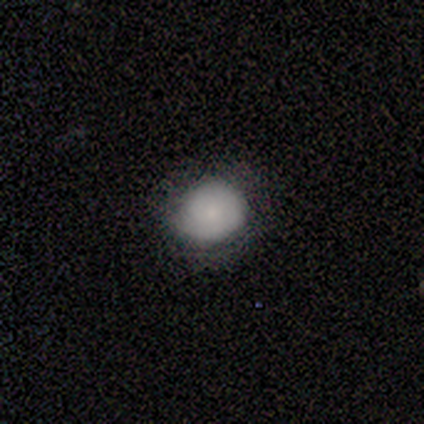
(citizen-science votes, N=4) Morphology: type=smooth (100%); roundness=round (75%); merging=none (75%).